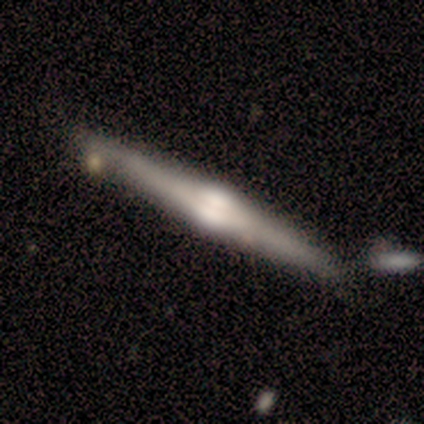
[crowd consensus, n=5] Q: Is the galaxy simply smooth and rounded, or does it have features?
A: smooth — 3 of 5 (60%).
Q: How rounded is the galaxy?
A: cigar-shaped — 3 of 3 (100%).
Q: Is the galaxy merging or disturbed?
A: none — 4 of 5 (80%).